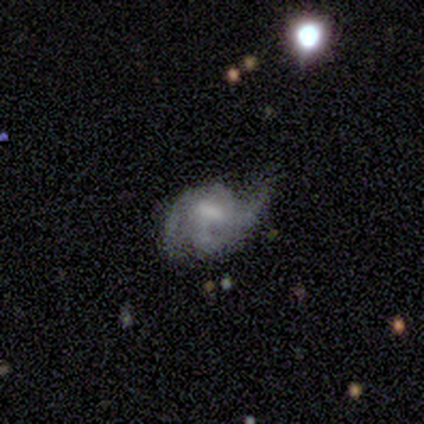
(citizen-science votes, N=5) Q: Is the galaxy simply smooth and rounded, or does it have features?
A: featured or disk — 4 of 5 (80%).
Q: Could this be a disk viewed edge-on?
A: no — 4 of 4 (100%).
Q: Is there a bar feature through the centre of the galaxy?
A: weak — 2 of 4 (50%).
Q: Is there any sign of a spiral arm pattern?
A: yes — 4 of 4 (100%).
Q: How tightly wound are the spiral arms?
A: medium — 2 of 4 (50%).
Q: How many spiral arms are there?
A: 3 — 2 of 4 (50%, tied with can't tell).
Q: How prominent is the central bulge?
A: moderate — 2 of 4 (50%).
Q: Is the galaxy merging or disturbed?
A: none — 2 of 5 (40%).